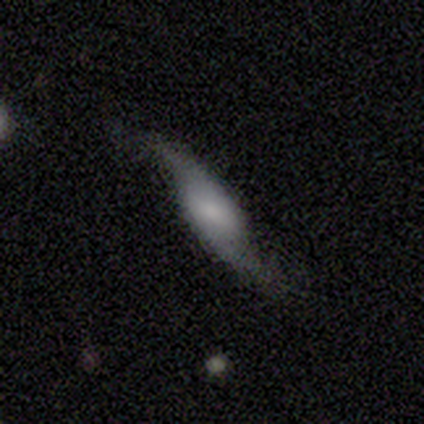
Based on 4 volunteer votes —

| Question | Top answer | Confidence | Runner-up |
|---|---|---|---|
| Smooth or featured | featured or disk | 100% | — |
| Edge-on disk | no | 75% | yes (25%) |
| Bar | no | 67% | weak (33%) |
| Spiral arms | yes | 100% | — |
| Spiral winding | loose | 100% | — |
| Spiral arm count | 2 | 100% | — |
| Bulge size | moderate | 67% | small (33%) |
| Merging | none | 100% | — |